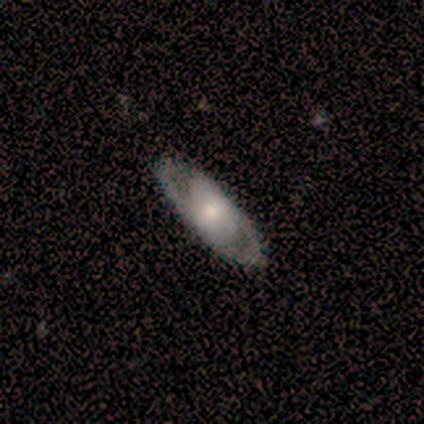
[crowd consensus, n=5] A featured or disk galaxy (80%) with a weak bar (50%, tied with no), 2 (100%) tight (50%, tied with medium) spiral arms (50%, tied with no) and a moderate central bulge (75%).

Vote fractions:
- Smooth or featured? featured or disk: 80% / smooth: 20% / star or artifact: 0%
- Edge-on disk? no: 100% / yes: 0%
- Bar? weak: 50% (tied) / no: 50% (tied) / strong: 0%
- Spiral arms? yes: 50% (tied) / no: 50% (tied)
- Spiral winding? tight: 50% (tied) / medium: 50% (tied) / loose: 0%
- Spiral arm count? 2: 100% / 1: 0% / 3: 0% / 4: 0% / more than 4: 0% / can't tell: 0%
- Bulge size? moderate: 75% / large: 25% / dominant: 0% / small: 0% / none: 0%
- Merging? none: 100% / minor disturbance: 0% / major disturbance: 0% / merger: 0%